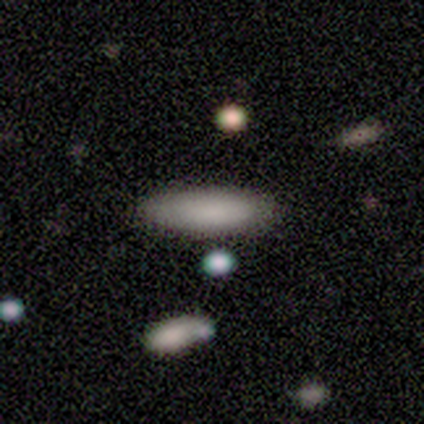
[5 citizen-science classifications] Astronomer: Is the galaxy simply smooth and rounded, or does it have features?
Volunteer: smooth — 100%.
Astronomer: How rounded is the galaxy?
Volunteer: cigar-shaped — 60% (runner-up: in between, 40%).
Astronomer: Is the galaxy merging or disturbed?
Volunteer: none — 80%.